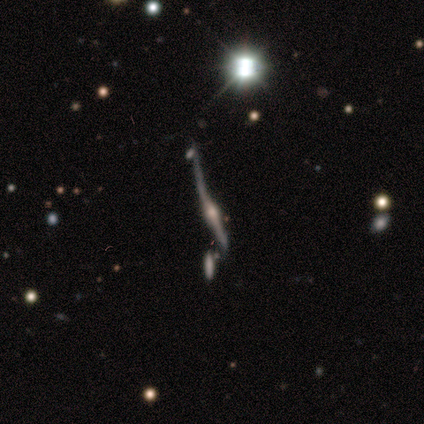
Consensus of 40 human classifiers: Q: Smooth or featured?
A: featured or disk (82%); runner-up: star or artifact (12%)
Q: Edge-on disk?
A: yes (94%); runner-up: no (6%)
Q: Edge-on bulge?
A: rounded (100%)
Q: Merging?
A: minor disturbance (51%); runner-up: major disturbance (23%)